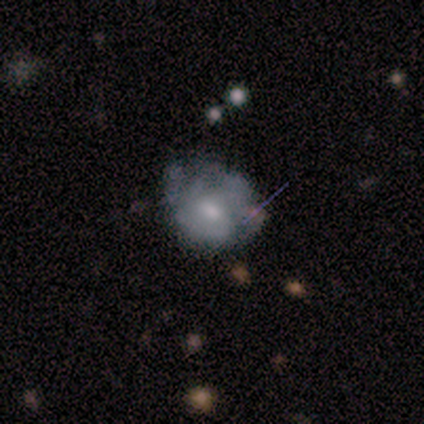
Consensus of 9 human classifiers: A smooth galaxy with no disk features (44%, tied with featured or disk) that is round (50%, tied with in between). Merging: minor disturbance (50%).